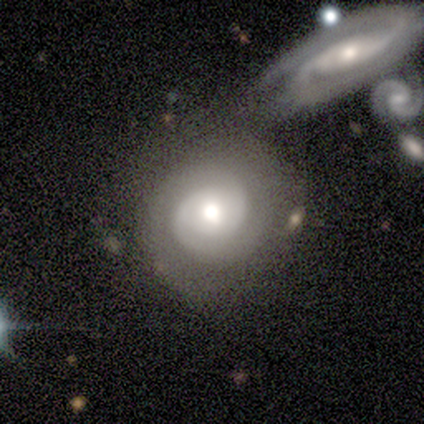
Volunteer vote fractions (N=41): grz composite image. It shows a featured or disk galaxy (88%) with no bar (74%), 2 (85%) tight (76%) spiral arms (94%) and a moderate central bulge (69%). Merging: none (59%).